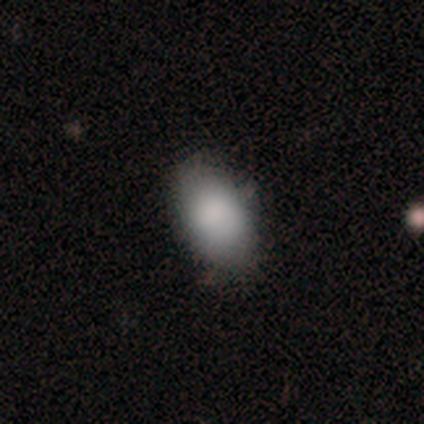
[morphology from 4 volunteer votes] This is clearly a smooth galaxy (100%). How rounded: clearly in between (100%). Merging: possibly none (50%, tied with minor disturbance).